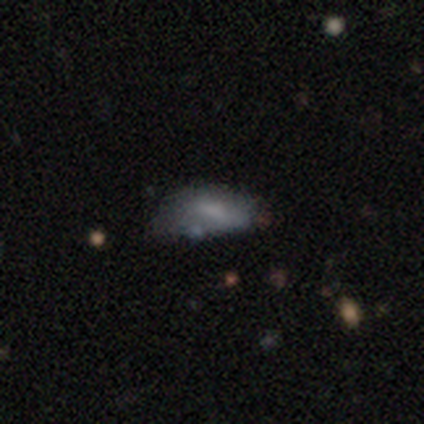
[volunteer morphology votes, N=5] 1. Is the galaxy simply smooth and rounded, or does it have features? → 60% smooth, 40% featured or disk, 0% star or artifact.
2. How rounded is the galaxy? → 100% in between, 0% round, 0% cigar-shaped.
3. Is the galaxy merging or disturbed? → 40% minor disturbance, 20% none, 20% major disturbance, 20% merger.